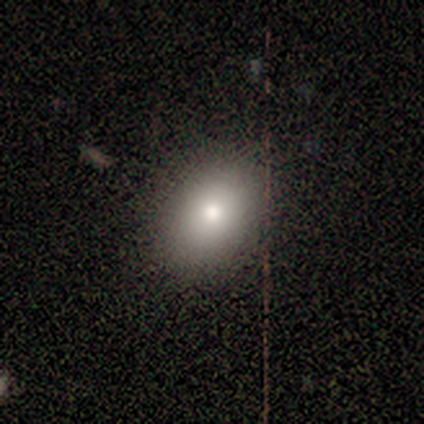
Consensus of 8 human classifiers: A smooth galaxy with no disk features (100%) that is in between round and cigar-shaped (88%). Merging: none (88%).